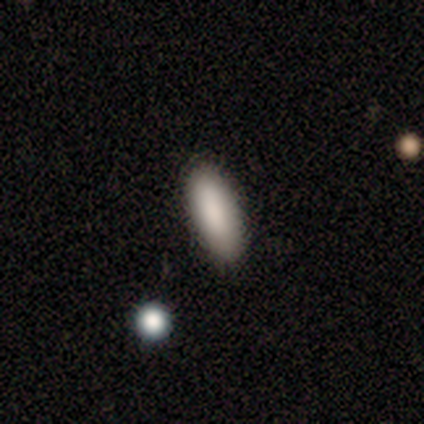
Smooth or featured: smooth — 100%
How rounded: in between — 50% (tied with cigar-shaped — 50%)
Merging: none — 100%